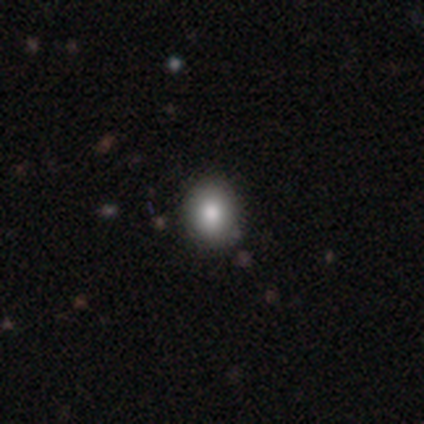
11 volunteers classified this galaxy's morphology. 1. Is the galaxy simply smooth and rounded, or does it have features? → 91% smooth, 9% featured or disk, 0% star or artifact.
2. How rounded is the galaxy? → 70% round, 30% in between, 0% cigar-shaped.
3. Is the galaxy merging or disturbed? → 82% none, 18% minor disturbance, 0% major disturbance, 0% merger.